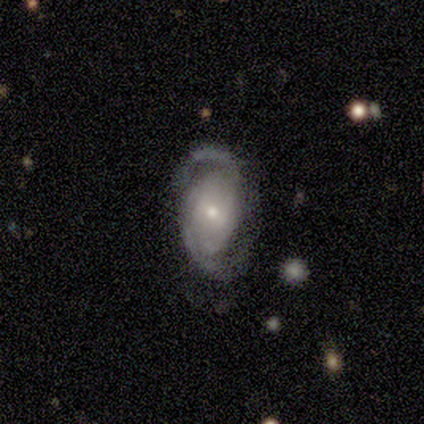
A featured or disk galaxy (57%) with no bar (100%), 2 (67%) tight (67%) spiral arms (75%) and a small central bulge (75%). Merging: major disturbance (43%).